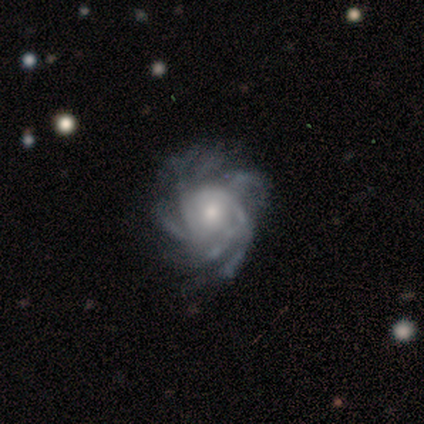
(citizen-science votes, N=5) Smooth or featured? featured or disk (100%)
Edge-on disk? no (100%)
Bar? no (80%)
Spiral arms? yes (100%)
Spiral winding? medium (60%)
Spiral arm count? 4 (60%)
Bulge size? small (60%)
Merging? none (60%)